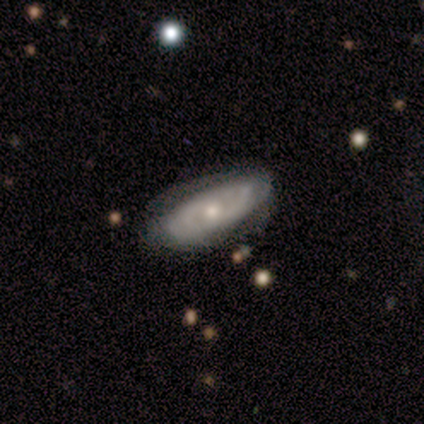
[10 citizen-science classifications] Smooth or featured: featured or disk — 80% (smooth — 20%)
Edge-on disk: no — 100%
Bar: no — 100%
Spiral arms: yes — 50% (tied with no — 50%)
Spiral winding: tight — 50% (tied with medium — 50%)
Spiral arm count: can't tell — 75% (2 — 25%)
Bulge size: small — 62% (moderate — 38%)
Merging: none — 80% (minor disturbance — 20%)